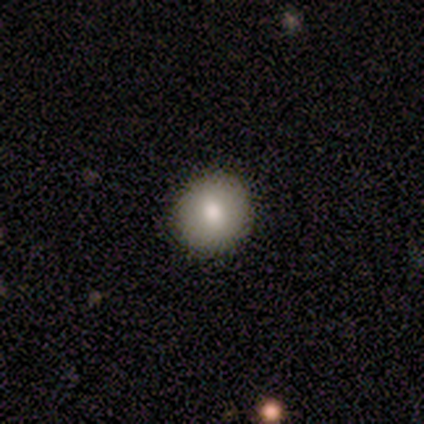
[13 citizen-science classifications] Smooth or featured?
  - smooth: 69% *
  - featured or disk: 23%
  - star or artifact: 8%
How rounded?
  - round: 100% *
  - in between: 0%
  - cigar-shaped: 0%
Merging?
  - none: 92% *
  - minor disturbance: 8%
  - major disturbance: 0%
  - merger: 0%